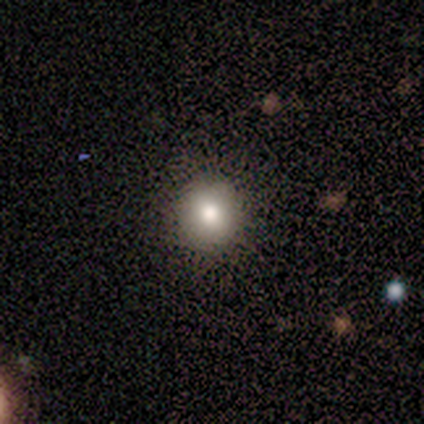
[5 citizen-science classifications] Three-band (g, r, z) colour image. It shows a smooth galaxy with no disk features (40%, tied with featured or disk) that is round (100%). Merging: none (100%).